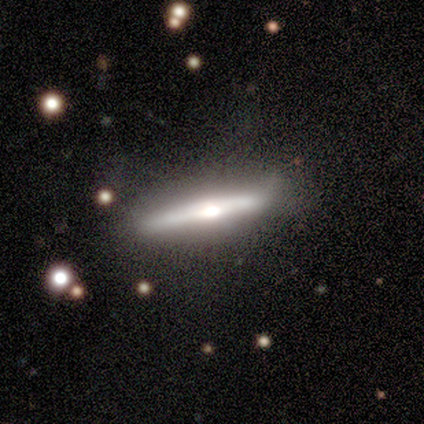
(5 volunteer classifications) smooth_or_featured: featured or disk (p=1.00)
disk_edge_on: yes (p=1.00)
edge_on_bulge: rounded (p=1.00)
merging: minor disturbance (p=0.60) [alt: none p=0.40]